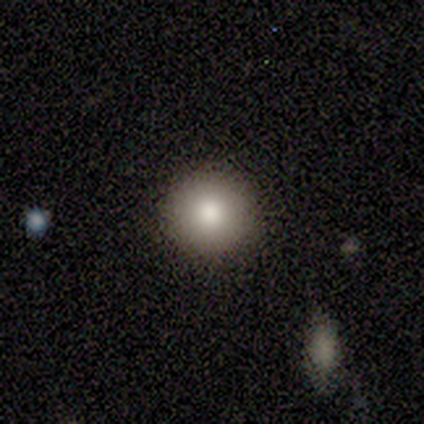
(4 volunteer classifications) A smooth galaxy with no disk features (50%, tied with star or artifact) that is round (100%).

Vote fractions:
- Smooth or featured? smooth: 50% (tied) / star or artifact: 50% (tied) / featured or disk: 0%
- How rounded? round: 100% / in between: 0% / cigar-shaped: 0%
- Merging? none: 100% / minor disturbance: 0% / major disturbance: 0% / merger: 0%